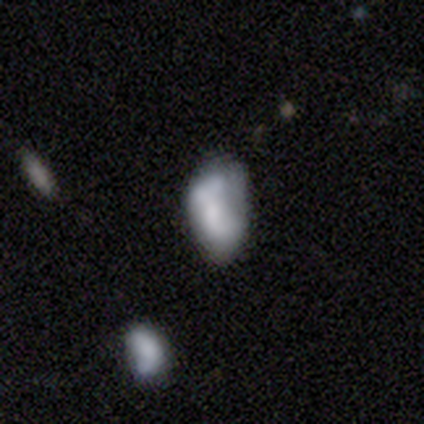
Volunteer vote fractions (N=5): Smooth or featured?
  - smooth: 80% *
  - featured or disk: 20%
  - star or artifact: 0%
How rounded?
  - in between: 100% *
  - round: 0%
  - cigar-shaped: 0%
Merging?
  - none: 100% *
  - minor disturbance: 0%
  - major disturbance: 0%
  - merger: 0%